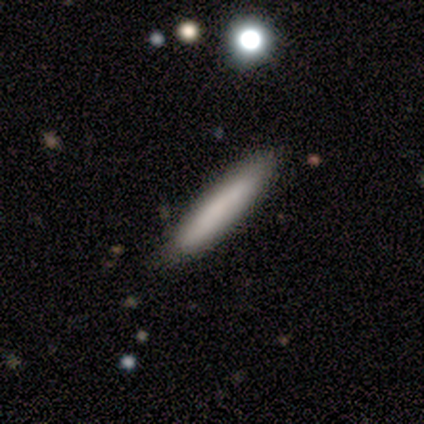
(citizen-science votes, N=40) Smooth or featured? 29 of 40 (72%) said smooth. How rounded? 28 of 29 (97%) said cigar-shaped. Merging? 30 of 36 (83%) said none.